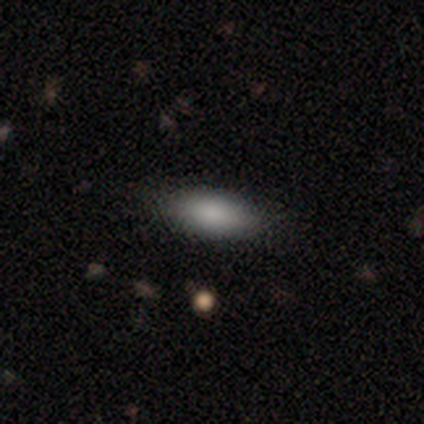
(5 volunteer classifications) A smooth galaxy with no disk features (80%) that is in between round and cigar-shaped (100%). Merging: none (60%).